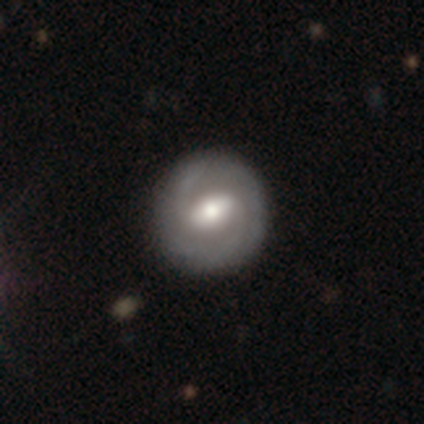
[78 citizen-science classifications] Smooth or featured: featured or disk — 81% (smooth — 17%)
Edge-on disk: no — 100%
Bar: weak — 60% (strong — 32%)
Spiral arms: yes — 87% (no — 13%)
Spiral winding: tight — 49% (medium — 42%)
Spiral arm count: 2 — 60% (can't tell — 18%)
Bulge size: moderate — 70% (large — 22%)
Merging: none — 43% (minor disturbance — 5%)